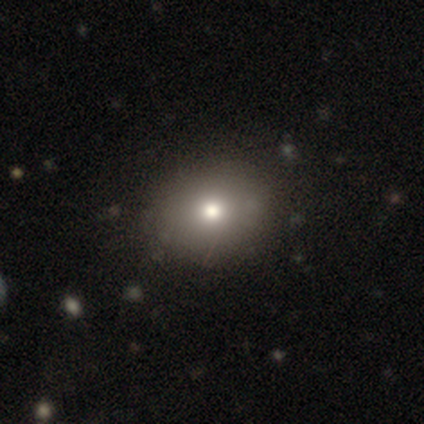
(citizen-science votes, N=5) smooth 80%, star or artifact 20%, featured or disk 0%. Down the decision tree: how rounded — round (75%); merging — none (75%).